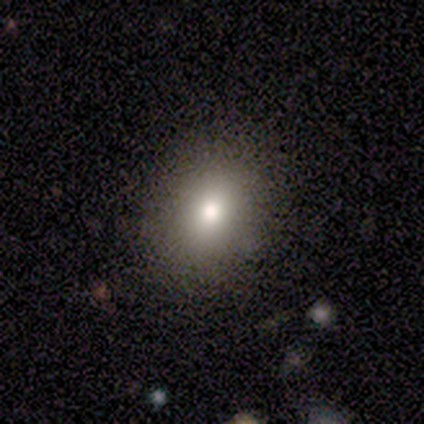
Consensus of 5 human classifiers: Morphology: type=smooth (80%); roundness=round (50%, tied with in between); merging=none (100%).